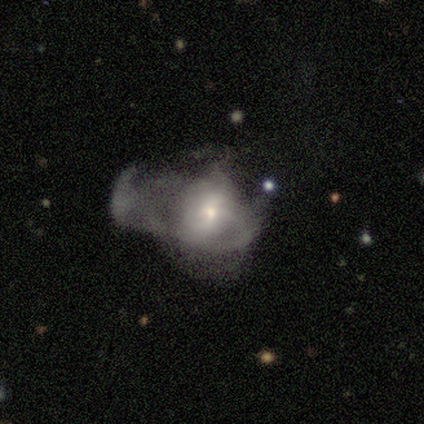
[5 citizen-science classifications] Q: Smooth or featured?
A: featured or disk (60%); runner-up: smooth (20%)
Q: Edge-on disk?
A: no (100%)
Q: Bar?
A: no (100%)
Q: Spiral arms?
A: no (100%)
Q: Bulge size?
A: moderate (67%); runner-up: small (33%)
Q: Merging?
A: major disturbance (100%)